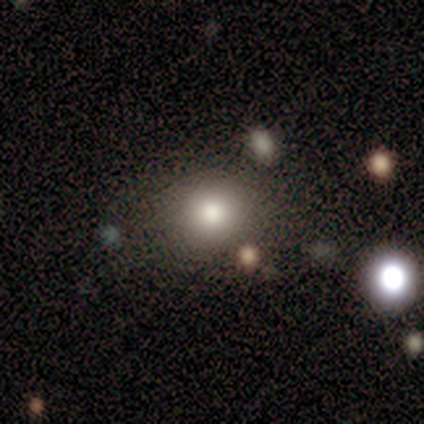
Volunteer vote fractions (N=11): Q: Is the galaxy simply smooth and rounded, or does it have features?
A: smooth — 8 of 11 (73%).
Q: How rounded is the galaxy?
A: round — 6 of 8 (75%).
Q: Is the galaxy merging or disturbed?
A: none — 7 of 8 (88%).